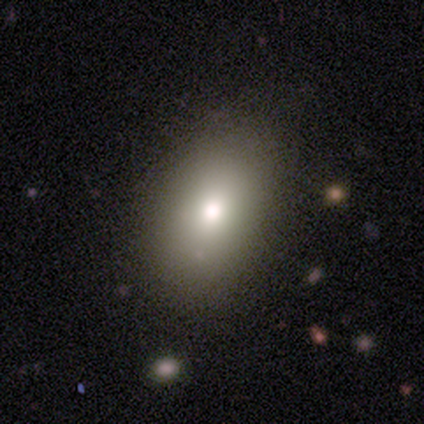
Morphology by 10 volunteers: Smooth or featured? smooth (50%)
How rounded? in between (100%)
Merging? none (86%)